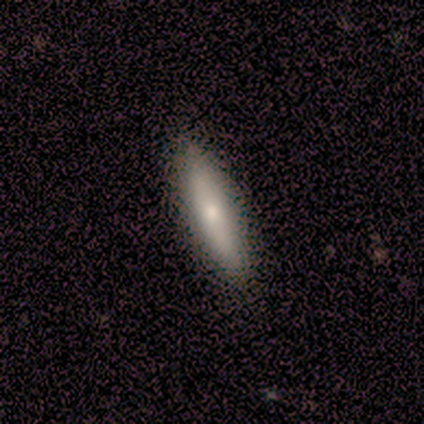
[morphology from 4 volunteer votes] A smooth galaxy with no disk features (75%) that is cigar-shaped (100%). Merging: none (100%).